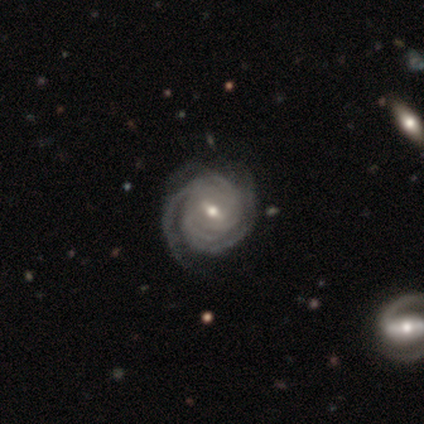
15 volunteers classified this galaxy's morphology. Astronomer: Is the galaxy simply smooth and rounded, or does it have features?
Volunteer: featured or disk — 93%.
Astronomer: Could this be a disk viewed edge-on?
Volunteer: no — 100%.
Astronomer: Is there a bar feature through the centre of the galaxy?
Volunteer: weak — 71%.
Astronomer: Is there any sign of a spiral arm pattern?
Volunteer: yes — 100%.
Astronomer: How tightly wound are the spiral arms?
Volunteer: tight — 100%.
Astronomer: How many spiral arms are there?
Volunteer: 3 — 29%, tied with 4 at 29%.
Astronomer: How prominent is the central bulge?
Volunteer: moderate — 57% (runner-up: small, 43%).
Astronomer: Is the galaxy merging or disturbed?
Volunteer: none — 87%.